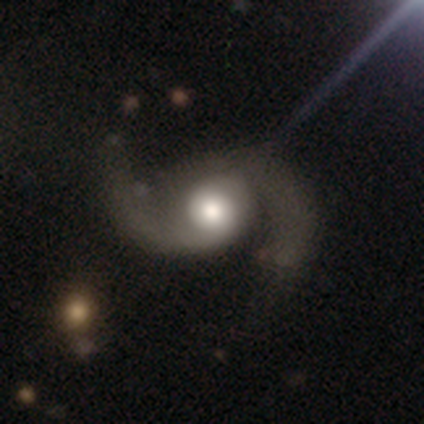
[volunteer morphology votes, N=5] A featured or disk galaxy (100%) with no bar (80%), 2 (100%) medium (80%) spiral arms (100%) and a large central bulge (80%).

Vote fractions:
- Smooth or featured? featured or disk: 100% / smooth: 0% / star or artifact: 0%
- Edge-on disk? no: 100% / yes: 0%
- Bar? no: 80% / strong: 20% / weak: 0%
- Spiral arms? yes: 100% / no: 0%
- Spiral winding? medium: 80% / loose: 20% / tight: 0%
- Spiral arm count? 2: 100% / 1: 0% / 3: 0% / 4: 0% / more than 4: 0% / can't tell: 0%
- Bulge size? large: 80% / small: 20% / dominant: 0% / moderate: 0% / none: 0%
- Merging? none: 80% / minor disturbance: 20% / major disturbance: 0% / merger: 0%